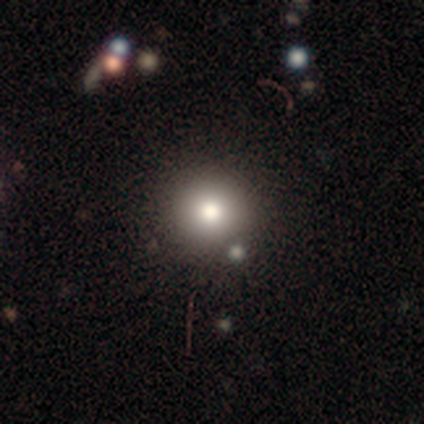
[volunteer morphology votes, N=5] Q: Smooth or featured?
A: smooth (100%)
Q: How rounded?
A: round (100%)
Q: Merging?
A: none (100%)